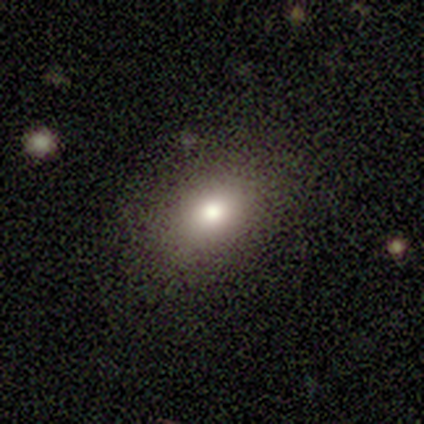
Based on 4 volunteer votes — Q: Smooth or featured?
A: smooth (75%); runner-up: star or artifact (25%)
Q: How rounded?
A: in between (100%)
Q: Merging?
A: none (67%); runner-up: minor disturbance (33%)